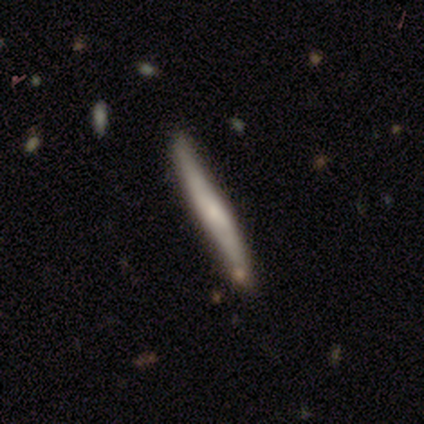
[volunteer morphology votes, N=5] smooth_or_featured: featured or disk (p=0.60) [alt: smooth p=0.40]
disk_edge_on: yes (p=1.00)
edge_on_bulge: none (p=0.67) [alt: rounded p=0.33]
merging: none (p=0.60) [alt: minor disturbance p=0.20]